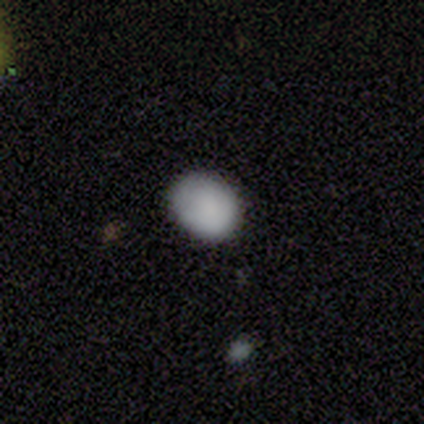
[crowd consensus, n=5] Smooth or featured?
  - smooth: 100% *
  - featured or disk: 0%
  - star or artifact: 0%
How rounded?
  - round: 60% *
  - in between: 40%
  - cigar-shaped: 0%
Merging?
  - none: 60% *
  - minor disturbance: 20%
  - major disturbance: 20%
  - merger: 0%